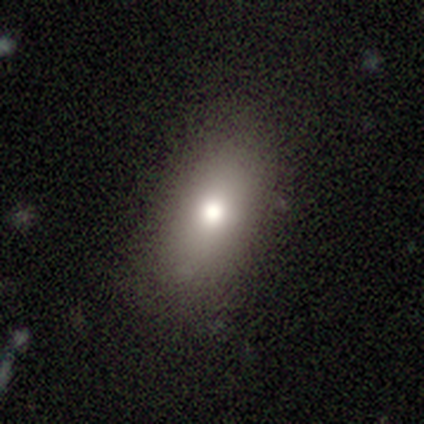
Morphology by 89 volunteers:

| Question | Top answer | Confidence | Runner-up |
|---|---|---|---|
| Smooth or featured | smooth | 78% | star or artifact (12%) |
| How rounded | in between | 88% | cigar-shaped (7%) |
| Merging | none | 79% | minor disturbance (17%) |